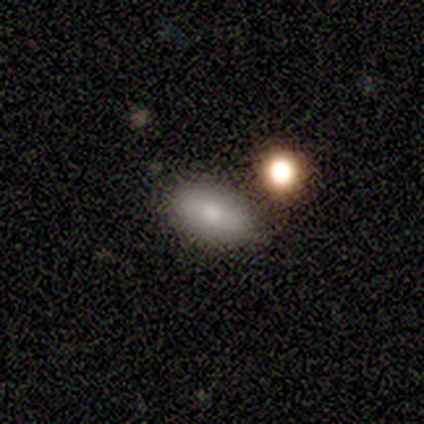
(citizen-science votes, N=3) Q: Smooth or featured?
A: smooth (100%)
Q: How rounded?
A: in between (100%)
Q: Merging?
A: none (100%)